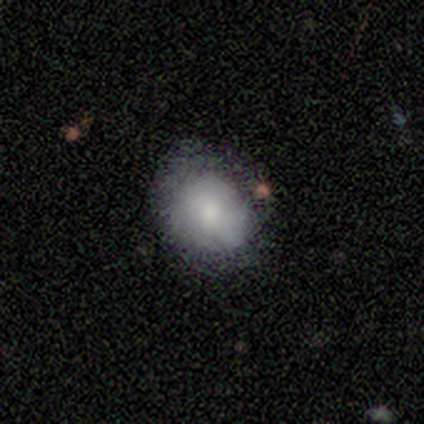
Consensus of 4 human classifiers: Smooth or featured: smooth — 75% (featured or disk — 25%)
How rounded: in between — 67% (round — 33%)
Merging: none — 75% (minor disturbance — 25%)